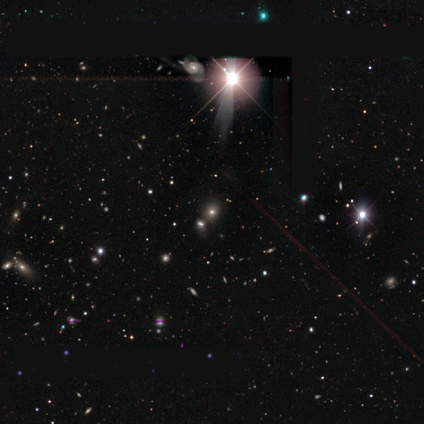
Q: Smooth or featured?
A: star or artifact (100%)